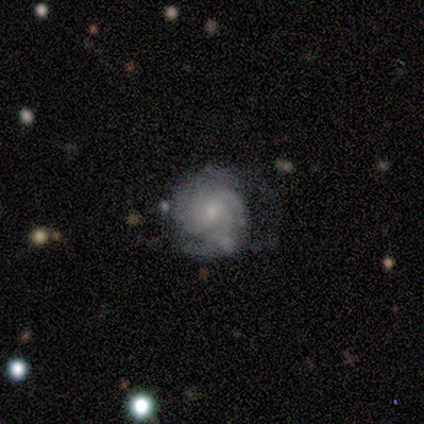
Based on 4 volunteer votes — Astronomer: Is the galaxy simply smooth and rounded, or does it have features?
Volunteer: featured or disk — 100%.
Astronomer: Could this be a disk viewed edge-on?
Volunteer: no — 100%.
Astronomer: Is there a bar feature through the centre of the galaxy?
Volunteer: no — 50%.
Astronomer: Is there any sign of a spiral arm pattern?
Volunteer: yes — 100%.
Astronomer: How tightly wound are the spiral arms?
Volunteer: tight — 75%.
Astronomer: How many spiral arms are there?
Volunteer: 2 — 50%, tied with 3 at 50%.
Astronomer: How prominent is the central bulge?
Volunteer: small — 100%.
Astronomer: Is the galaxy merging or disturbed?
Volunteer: none — 100%.